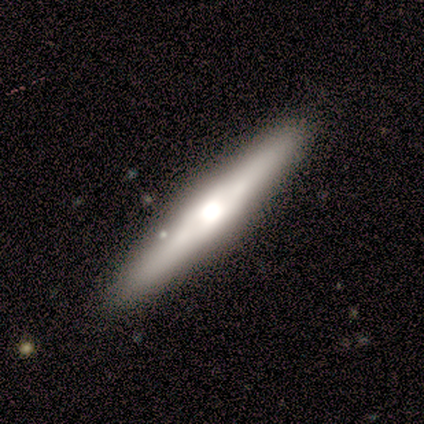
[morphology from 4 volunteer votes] A featured or disk galaxy (75%) viewed edge-on (100%) with a rounded central bulge (67%).

Vote fractions:
- Smooth or featured? featured or disk: 75% / smooth: 25% / star or artifact: 0%
- Edge-on disk? yes: 100% / no: 0%
- Edge-on bulge? rounded: 67% / boxy: 33% / none: 0%
- Merging? none: 100% / minor disturbance: 0% / major disturbance: 0% / merger: 0%